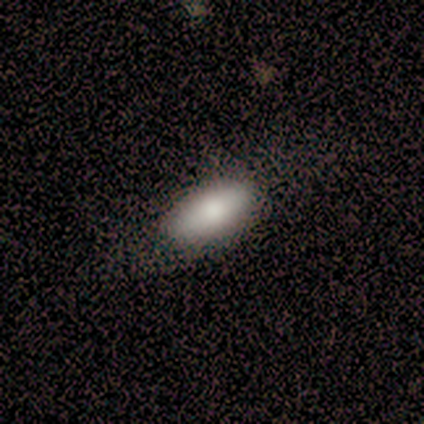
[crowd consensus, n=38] Overall: smooth (84%). How rounded: in between (78%). Merging: none (61%).